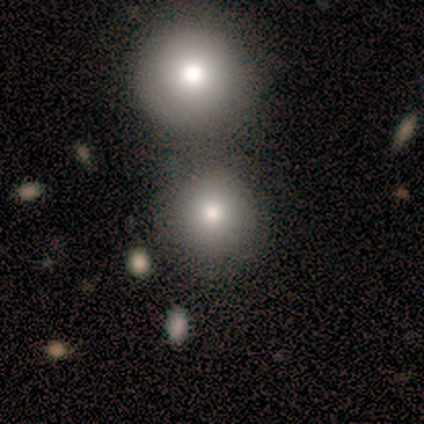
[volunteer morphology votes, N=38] A smooth galaxy with no disk features (79%) that is round (100%).

Vote fractions:
- Smooth or featured? smooth: 79% / star or artifact: 13% / featured or disk: 8%
- How rounded? round: 100% / in between: 0% / cigar-shaped: 0%
- Merging? none: 42% / merger: 36% / major disturbance: 3% / minor disturbance: 0%